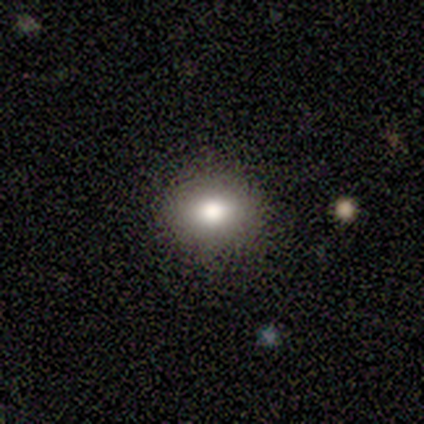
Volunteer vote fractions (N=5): Q: Smooth or featured?
A: smooth (100%)
Q: How rounded?
A: in between (60%); runner-up: round (40%)
Q: Merging?
A: none (80%); runner-up: minor disturbance (20%)